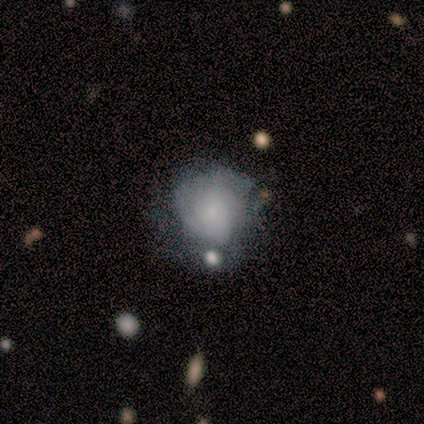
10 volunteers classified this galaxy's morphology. featured or disk 90%, smooth 10%, star or artifact 0%. Down the decision tree: edge-on disk — no (89%); bar — no (88%); spiral arms — yes (75%); spiral arm count — can't tell (67%); spiral winding — tight (67%); bulge size — none (38%); merging — none (50%).